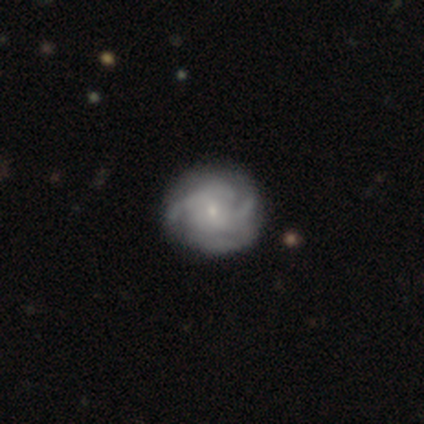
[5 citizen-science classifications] A featured or disk galaxy (100%) with no bar (60%), 2 (40%, tied with can't tell) tight (60%) spiral arms (100%) and a small central bulge (100%). Merging: none (60%).